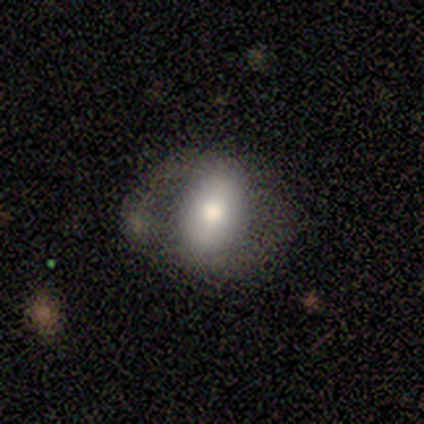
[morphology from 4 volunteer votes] A smooth galaxy with no disk features (75%) that is in between round and cigar-shaped (100%). Merging: minor disturbance (50%).